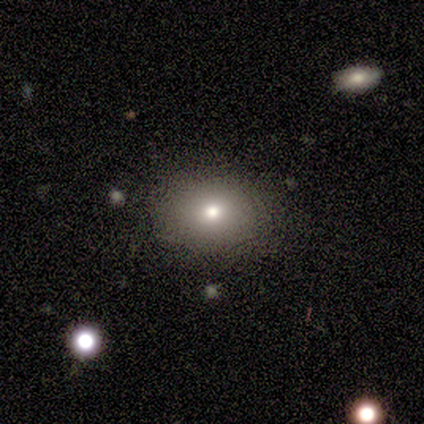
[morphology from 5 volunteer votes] Volunteers were most divided on "bulge size": moderate: 67%, small: 33%, dominant: 0%, large: 0%, none: 0%. More confident: bar — no (100%); spiral arms — no (100%); merging — none (100%); smooth or featured — featured or disk (80%); edge-on disk — no (75%).